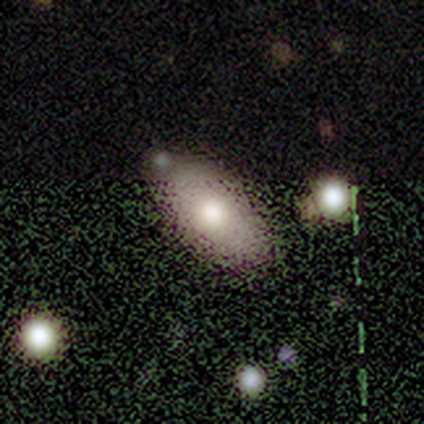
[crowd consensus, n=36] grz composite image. It shows a smooth galaxy with no disk features (83%) that is in between round and cigar-shaped (97%). Merging: none (53%).